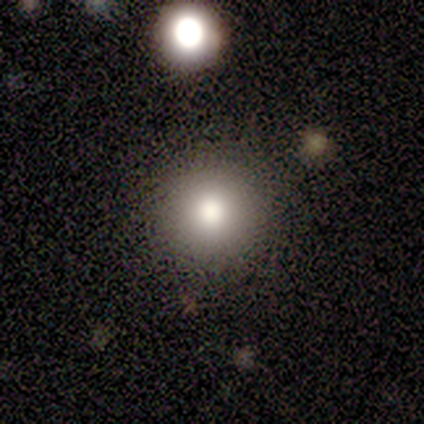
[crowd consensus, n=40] Q: Smooth or featured?
A: smooth (75%); runner-up: featured or disk (12%)
Q: How rounded?
A: round (97%); runner-up: in between (3%)
Q: Merging?
A: none (94%); runner-up: minor disturbance (3%)